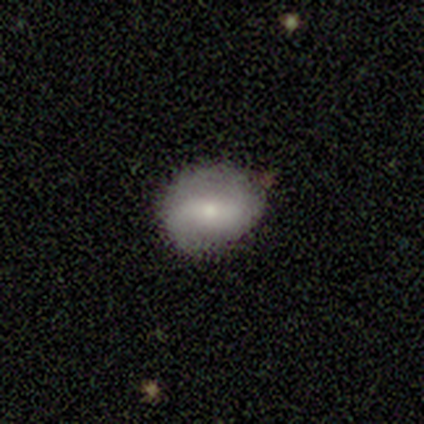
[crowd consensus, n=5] Smooth or featured? 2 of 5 (40%, tied with featured or disk) said smooth. How rounded? 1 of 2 (50%, tied with in between) said round. Merging? 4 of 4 (100%) said none.